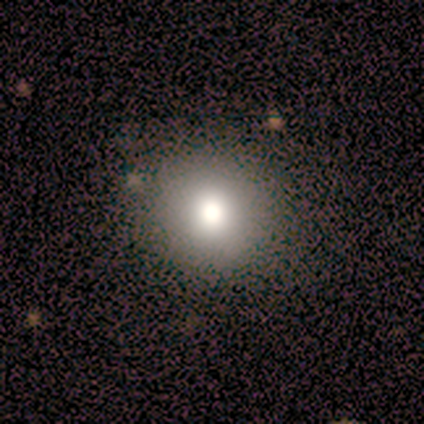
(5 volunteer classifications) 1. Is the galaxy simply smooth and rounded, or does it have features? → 80% smooth, 20% star or artifact, 0% featured or disk.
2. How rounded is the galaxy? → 100% round, 0% in between, 0% cigar-shaped.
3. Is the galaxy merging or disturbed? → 100% none, 0% minor disturbance, 0% major disturbance, 0% merger.